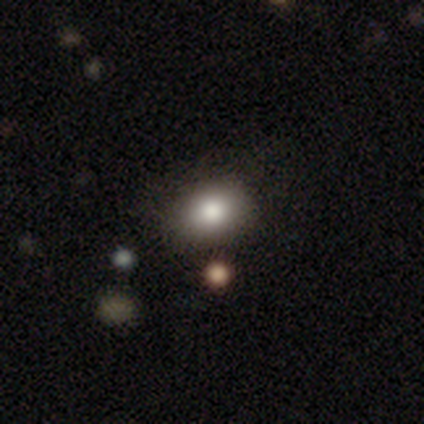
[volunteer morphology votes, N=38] A smooth galaxy with no disk features (76%) that is in between round and cigar-shaped (59%).

Vote fractions:
- Smooth or featured? smooth: 76% / star or artifact: 13% / featured or disk: 11%
- How rounded? in between: 59% / round: 41% / cigar-shaped: 0%
- Merging? none: 76% / minor disturbance: 18% / major disturbance: 3% / merger: 3%